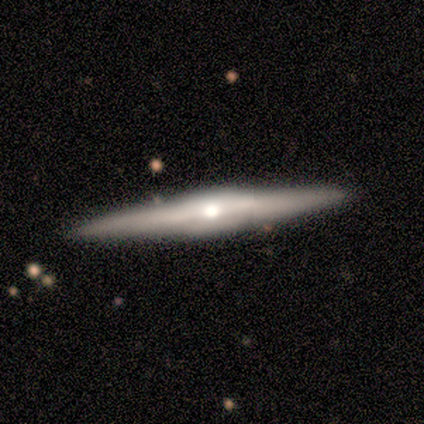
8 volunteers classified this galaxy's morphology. type=featured or disk (100%); edge-on=yes (100%); edge-on bulge=rounded (75%); merging=none (100%).